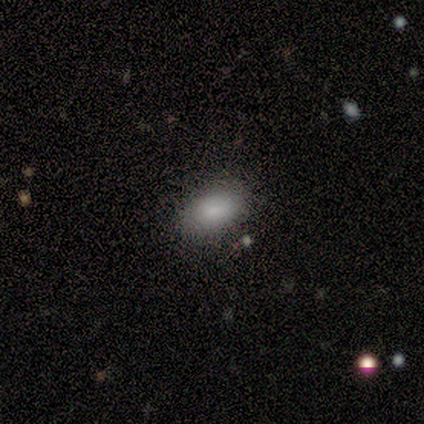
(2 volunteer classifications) smooth-or-featured: smooth: 100% | featured or disk: 0% | star or artifact: 0%
  how-rounded: in between: 100% | round: 0% | cigar-shaped: 0%
  merging: none: 50% (tied) | merger: 50% (tied) | minor disturbance: 0% | major disturbance: 0%